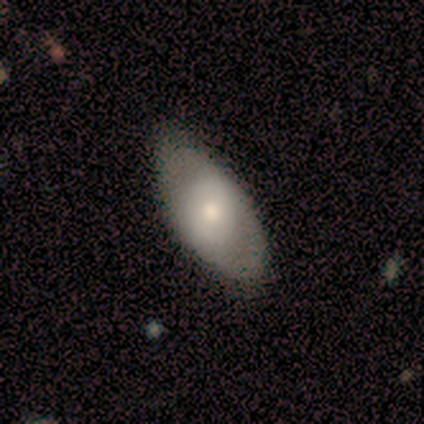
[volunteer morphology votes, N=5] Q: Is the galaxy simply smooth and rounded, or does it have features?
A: smooth — 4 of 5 (80%).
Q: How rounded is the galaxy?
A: in between — 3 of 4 (75%).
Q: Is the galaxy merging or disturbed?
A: none — 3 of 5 (60%).